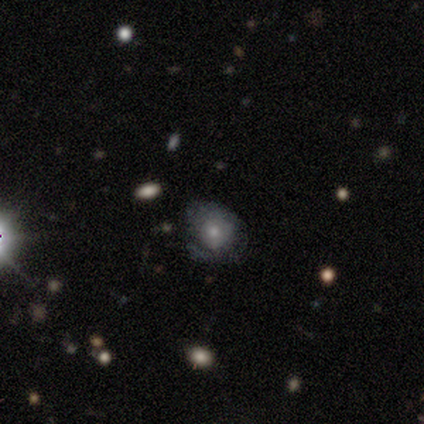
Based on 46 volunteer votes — Q: Smooth or featured?
A: featured or disk (46%); runner-up: smooth (39%)
Q: Edge-on disk?
A: no (95%); runner-up: yes (5%)
Q: Bar?
A: no (95%); runner-up: weak (5%)
Q: Spiral arms?
A: yes (50%); tied with: no (50%)
Q: Spiral winding?
A: medium (50%); runner-up: tight (40%)
Q: Spiral arm count?
A: can't tell (70%); runner-up: 1 (20%)
Q: Bulge size?
A: small (50%); runner-up: moderate (40%)
Q: Merging?
A: none (56%); runner-up: minor disturbance (26%)